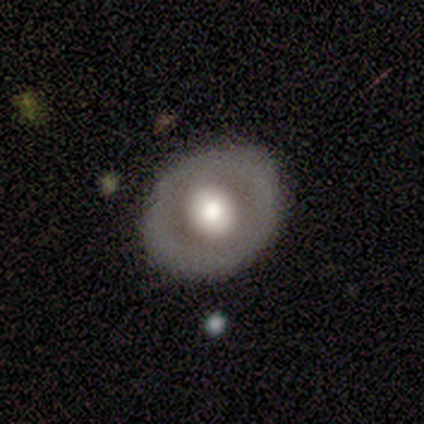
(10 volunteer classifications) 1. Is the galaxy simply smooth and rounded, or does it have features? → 40% smooth (tied), 40% featured or disk (tied), 20% star or artifact.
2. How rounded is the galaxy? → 100% round, 0% in between, 0% cigar-shaped.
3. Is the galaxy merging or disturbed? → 88% none, 12% minor disturbance, 0% major disturbance, 0% merger.